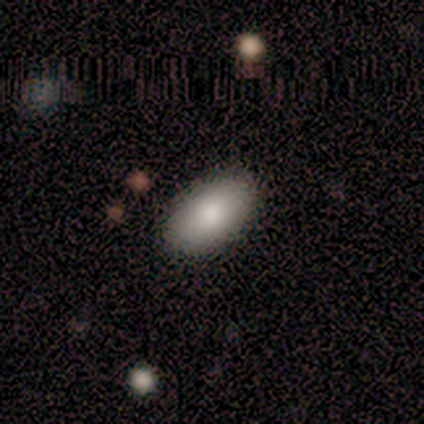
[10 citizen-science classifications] Smooth or featured? 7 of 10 (70%) said smooth. How rounded? 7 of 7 (100%) said in between. Merging? 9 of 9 (100%) said none.